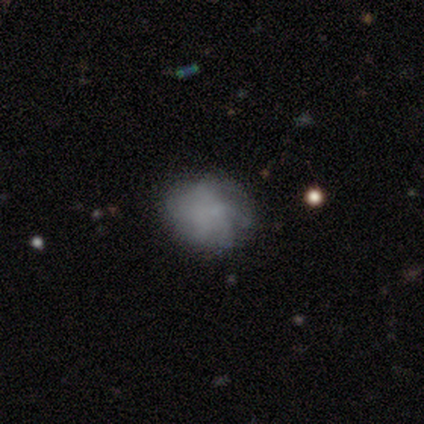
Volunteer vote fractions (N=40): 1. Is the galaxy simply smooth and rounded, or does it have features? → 50% smooth, 40% featured or disk, 10% star or artifact.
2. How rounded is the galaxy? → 65% round, 30% in between, 5% cigar-shaped.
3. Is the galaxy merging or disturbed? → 67% none, 22% minor disturbance, 11% major disturbance, 0% merger.